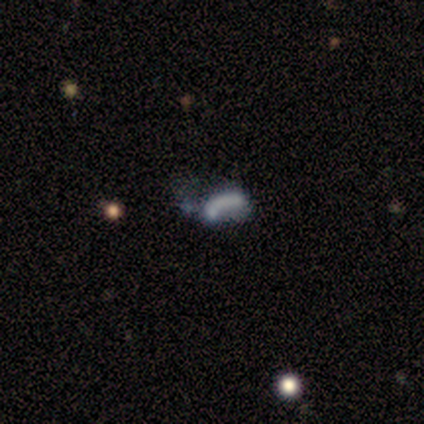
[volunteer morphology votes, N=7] Smooth or featured: featured or disk — 43% (tied with star or artifact — 43%)
Edge-on disk: no — 100%
Bar: no — 100%
Spiral arms: no — 100%
Bulge size: none — 100%
Merging: none — 25% (tied with minor disturbance — 25%; major disturbance — 25%; merger — 25%)